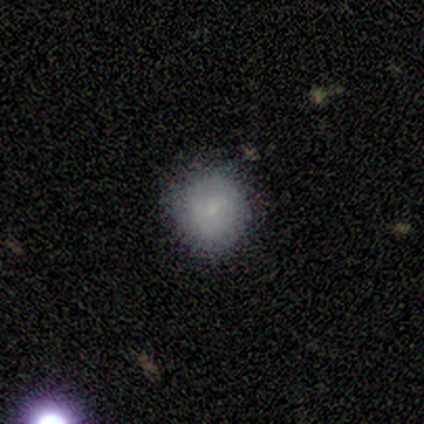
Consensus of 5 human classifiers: smooth 60%, featured or disk 20%, star or artifact 20%. Down the decision tree: how rounded — round (100%); merging — none (100%).